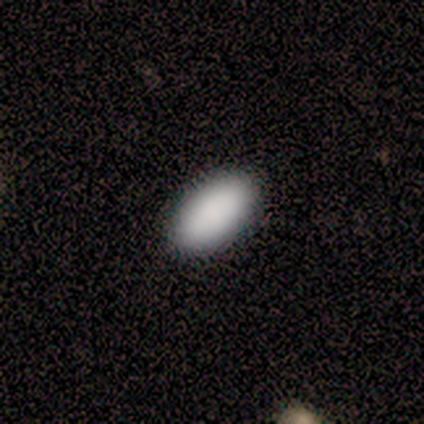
This is clearly a smooth galaxy (100%). How rounded: clearly in between (100%). Merging: clearly none (80%).